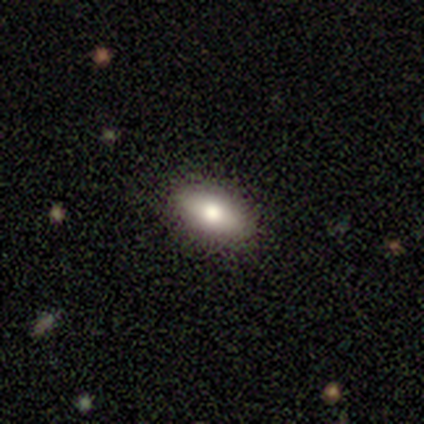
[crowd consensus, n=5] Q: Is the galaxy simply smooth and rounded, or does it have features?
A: smooth — 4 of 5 (80%).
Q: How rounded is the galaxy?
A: in between — 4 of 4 (100%).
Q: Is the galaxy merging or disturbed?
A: none — 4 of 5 (80%).